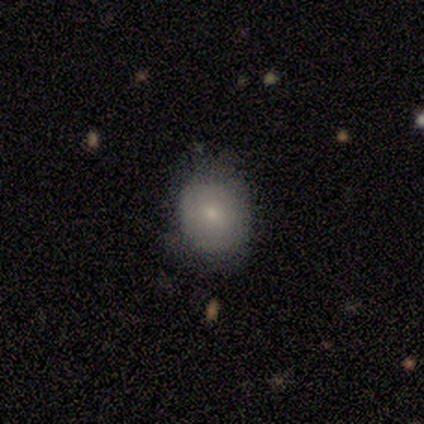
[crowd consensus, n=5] Q: Smooth or featured?
A: smooth (100%)
Q: How rounded?
A: round (80%); runner-up: in between (20%)
Q: Merging?
A: none (60%); runner-up: minor disturbance (40%)